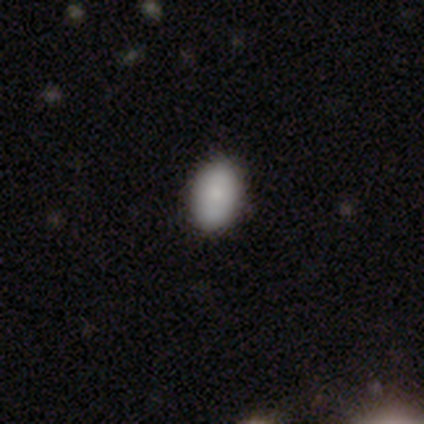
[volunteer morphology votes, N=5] type=smooth (100%); roundness=in between (100%); merging=none (100%).